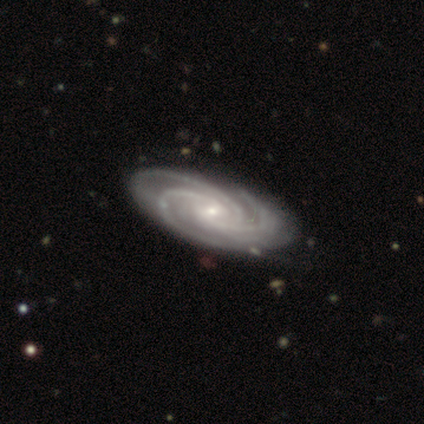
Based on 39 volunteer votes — Volunteers were most divided on "bar": no: 46%, weak: 41%, strong: 14%. More confident: spiral arms — yes (100%); smooth or featured — featured or disk (97%); edge-on disk — no (97%); spiral arm count — 3 (86%); bulge size — small (76%); merging — none (63%); spiral winding — tight (62%).